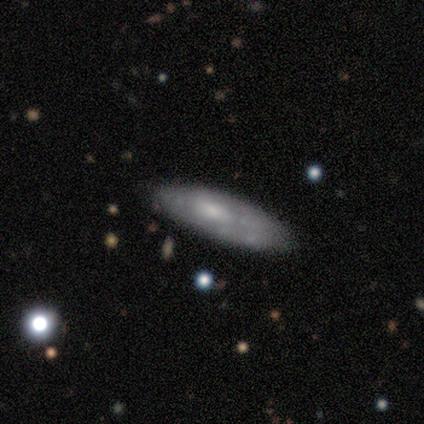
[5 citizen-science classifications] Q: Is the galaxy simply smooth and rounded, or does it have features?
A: featured or disk — 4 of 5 (80%).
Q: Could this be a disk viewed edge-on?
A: yes — 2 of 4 (50%, tied with no).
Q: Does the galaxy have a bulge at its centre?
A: none — 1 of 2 (50%, tied with rounded).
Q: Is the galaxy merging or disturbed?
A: none — 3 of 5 (60%).